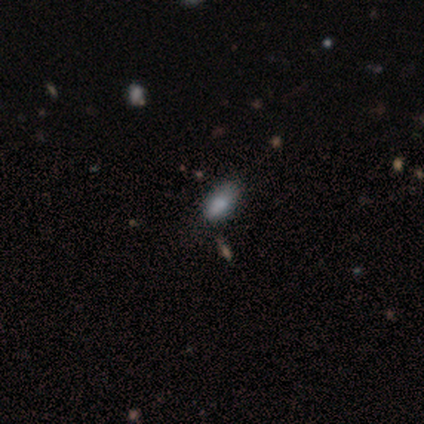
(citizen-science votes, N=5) smooth-or-featured: smooth: 100% | featured or disk: 0% | star or artifact: 0%
  how-rounded: in between: 80% | round: 20% | cigar-shaped: 0%
  merging: none: 80% | minor disturbance: 20% | major disturbance: 0% | merger: 0%